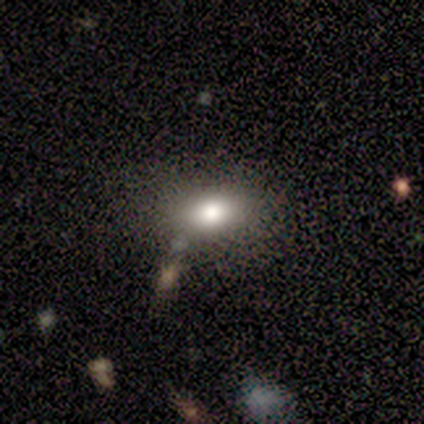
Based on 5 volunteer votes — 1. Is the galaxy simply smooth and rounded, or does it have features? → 80% smooth, 20% featured or disk, 0% star or artifact.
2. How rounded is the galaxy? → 75% in between, 25% round, 0% cigar-shaped.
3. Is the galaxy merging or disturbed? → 80% none, 20% minor disturbance, 0% major disturbance, 0% merger.